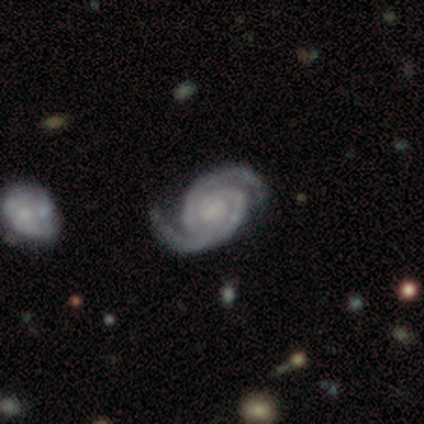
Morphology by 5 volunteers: A featured or disk galaxy (100%) with a weak bar (80%), 2 (100%) tight (80%) spiral arms (100%) and a small central bulge (60%).

Vote fractions:
- Smooth or featured? featured or disk: 100% / smooth: 0% / star or artifact: 0%
- Edge-on disk? no: 100% / yes: 0%
- Bar? weak: 80% / no: 20% / strong: 0%
- Spiral arms? yes: 100% / no: 0%
- Spiral winding? tight: 80% / medium: 20% / loose: 0%
- Spiral arm count? 2: 100% / 1: 0% / 3: 0% / 4: 0% / more than 4: 0% / can't tell: 0%
- Bulge size? small: 60% / none: 40% / dominant: 0% / large: 0% / moderate: 0%
- Merging? major disturbance: 40% / none: 20% / minor disturbance: 20% / merger: 20%